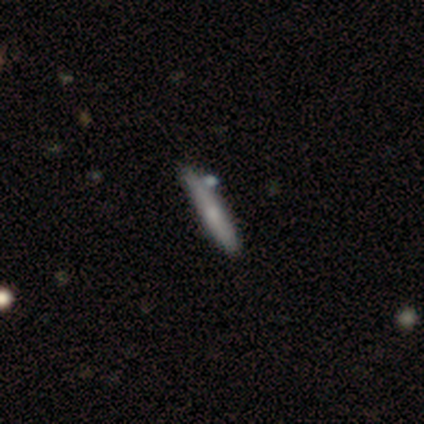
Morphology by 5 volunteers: Smooth or featured? smooth (100%)
How rounded? cigar-shaped (100%)
Merging? none (80%)